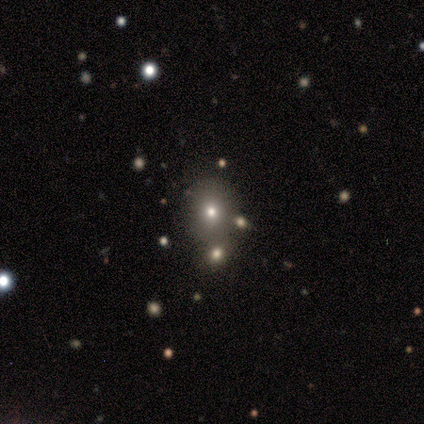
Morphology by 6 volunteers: Smooth or featured: smooth — 67% (star or artifact — 33%)
How rounded: round — 75% (in between — 25%)
Merging: none — 50% (tied with merger — 50%)